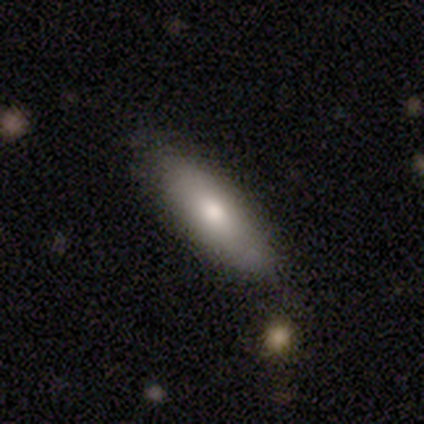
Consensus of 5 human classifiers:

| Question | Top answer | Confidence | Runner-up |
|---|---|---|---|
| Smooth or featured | smooth | 100% | — |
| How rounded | in between | 60% | cigar-shaped (40%) |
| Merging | none | 60% | minor disturbance (40%) |